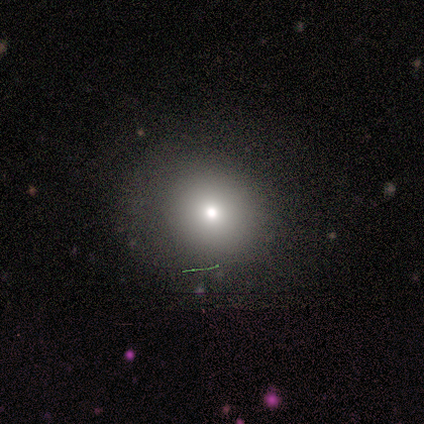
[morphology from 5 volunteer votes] A star or artifact, not a galaxy (60%).

Vote fractions:
- Smooth or featured? star or artifact: 60% / smooth: 40% / featured or disk: 0%